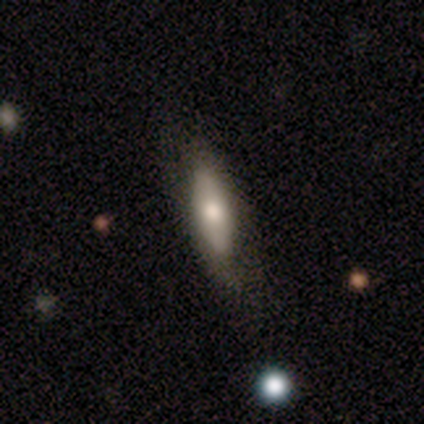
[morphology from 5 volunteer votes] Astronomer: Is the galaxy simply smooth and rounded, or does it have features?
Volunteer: featured or disk — 60% (runner-up: smooth, 40%).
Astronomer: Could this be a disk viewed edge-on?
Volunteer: yes — 67%.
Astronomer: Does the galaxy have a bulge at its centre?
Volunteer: none — 50%, tied with rounded at 50%.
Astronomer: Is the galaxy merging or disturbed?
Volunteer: none — 60% (runner-up: minor disturbance, 40%).